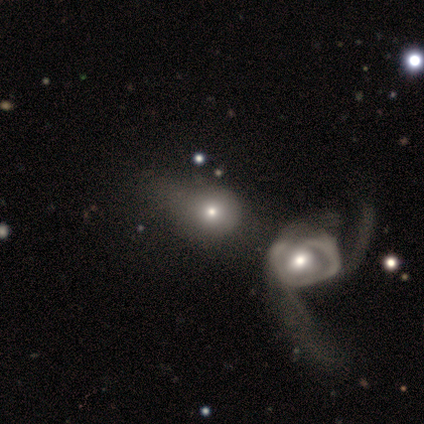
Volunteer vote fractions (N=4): Smooth or featured: smooth — 50% (tied with featured or disk — 50%)
How rounded: round — 100%
Merging: merger — 75% (minor disturbance — 25%)